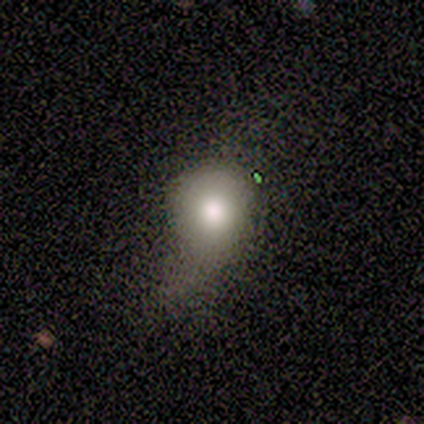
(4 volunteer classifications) Overall: smooth (100%). How rounded: round (100%). Merging: minor disturbance (75%).